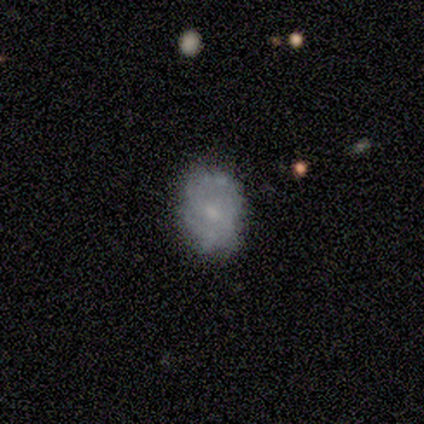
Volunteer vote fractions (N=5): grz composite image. It shows a featured or disk galaxy (60%) with a weak bar (67%), 2 (100%) medium (100%) spiral arms (100%) and a small central bulge (67%). Merging: none (60%).